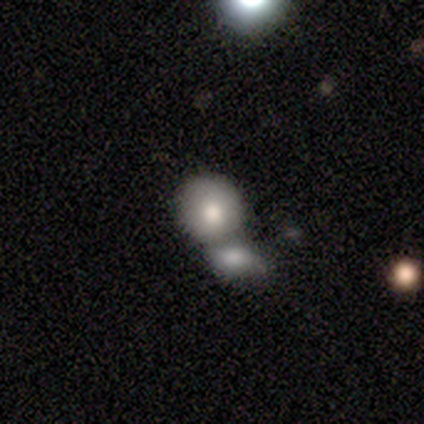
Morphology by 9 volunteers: type=smooth (78%); roundness=round (100%); merging=merger (78%).